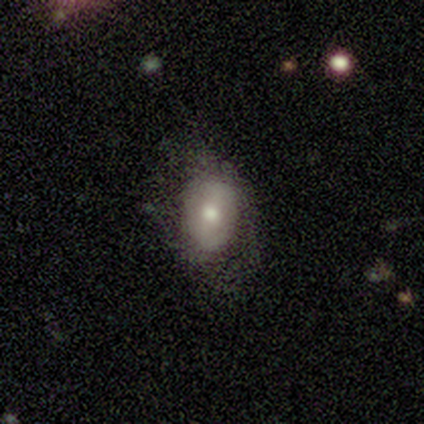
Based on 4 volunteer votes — Smooth or featured?
  - featured or disk: 75% *
  - smooth: 25%
  - star or artifact: 0%
Edge-on disk?
  - no: 100% *
  - yes: 0%
Bar?
  - no: 100% *
  - strong: 0%
  - weak: 0%
Spiral arms?
  - no: 100% *
  - yes: 0%
Bulge size?
  - large: 33% * (tied)
  - moderate: 33% * (tied)
  - small: 33% * (tied)
  - dominant: 0%
  - none: 0%
Merging?
  - none: 50% * (tied)
  - minor disturbance: 50% * (tied)
  - major disturbance: 0%
  - merger: 0%